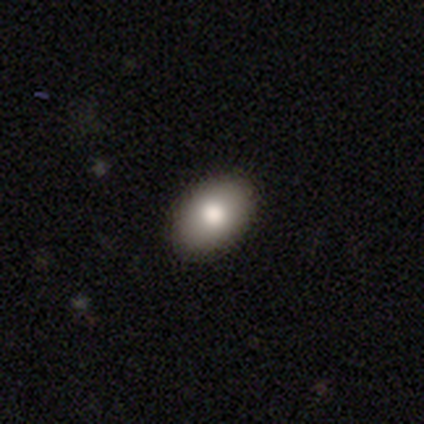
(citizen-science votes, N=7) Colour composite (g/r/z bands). It shows a smooth galaxy with no disk features (86%) that is in between round and cigar-shaped (100%). Merging: none (83%).